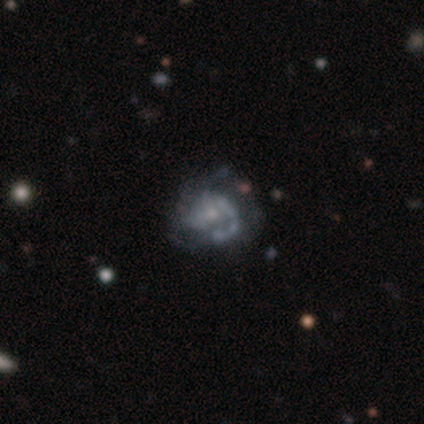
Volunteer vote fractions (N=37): Smooth or featured?
  - featured or disk: 68% *
  - star or artifact: 19%
  - smooth: 14%
Edge-on disk?
  - no: 96% *
  - yes: 4%
Bar?
  - no: 71% *
  - weak: 25%
  - strong: 4%
Spiral arms?
  - yes: 67% *
  - no: 33%
Spiral winding?
  - tight: 44% *
  - medium: 38%
  - loose: 19%
Spiral arm count?
  - 1: 50% *
  - 2: 31%
  - can't tell: 12%
  - 3: 6%
  - 4: 0%
  - more than 4: 0%
Bulge size?
  - small: 71% *
  - moderate: 29%
  - dominant: 0%
  - large: 0%
  - none: 0%
Merging?
  - none: 63% *
  - minor disturbance: 23%
  - major disturbance: 13%
  - merger: 0%